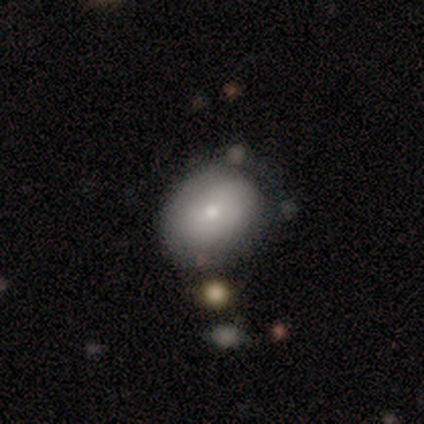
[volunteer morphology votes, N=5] This appears to be a featured or disk galaxy (60%) with no bar (100%), no spiral arms (67%) and a small central bulge (100%). Merging: none (40%, tied with major disturbance).